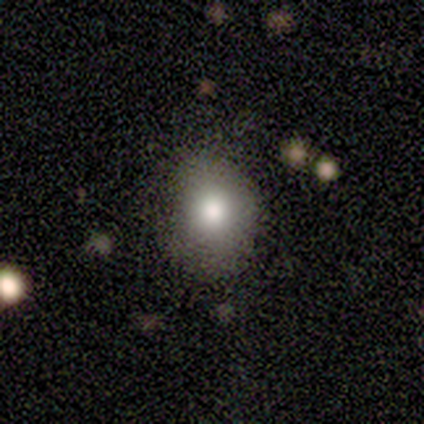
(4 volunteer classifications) This appears to be a smooth galaxy with no disk features (75%) that is in between round and cigar-shaped (67%). Merging: none (50%, tied with minor disturbance).